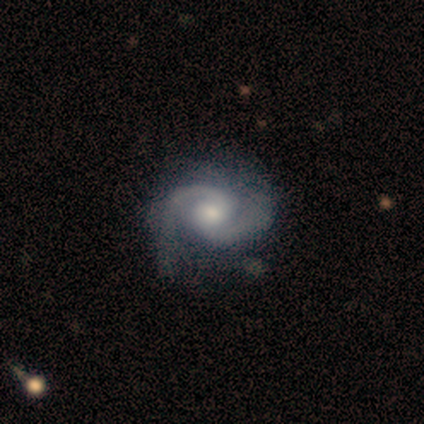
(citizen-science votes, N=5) This is clearly a featured or disk galaxy (80%). It is clearly not viewed edge-on (100%). Bar: possibly weak (50%, tied with no). Spiral arm pattern: clearly yes (100%). Spiral arm count: clearly 2 (100%). Spiral winding: likely medium (75%). Central bulge: possibly small (50%). Merging: clearly none (100%).